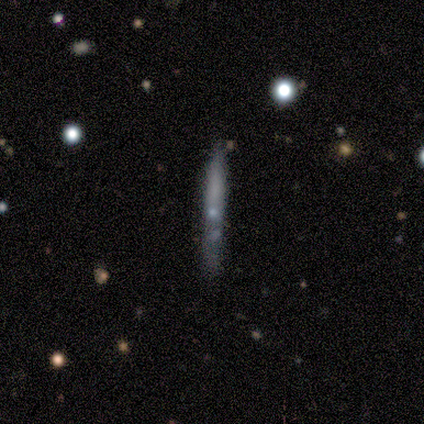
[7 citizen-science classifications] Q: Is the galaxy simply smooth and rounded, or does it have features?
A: featured or disk — 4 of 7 (57%).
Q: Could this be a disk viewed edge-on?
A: yes — 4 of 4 (100%).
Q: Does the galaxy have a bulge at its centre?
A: none — 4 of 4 (100%).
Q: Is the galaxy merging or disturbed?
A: none — 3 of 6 (50%).